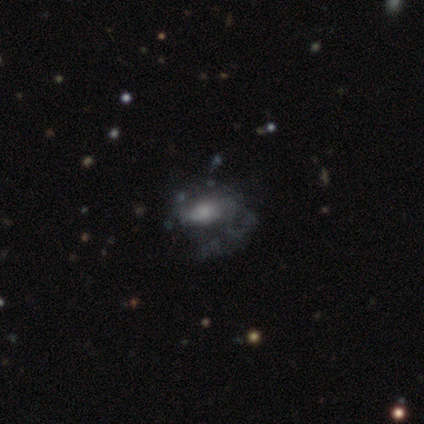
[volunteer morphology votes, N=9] featured or disk 56%, smooth 44%, star or artifact 0%. Down the decision tree: edge-on disk — no (100%); bar — no (60%); spiral arms — yes (60%); spiral arm count — 1 (33%, tied with 2 and can't tell); spiral winding — tight (33%, tied with medium and loose); bulge size — moderate (80%); merging — none (44%).